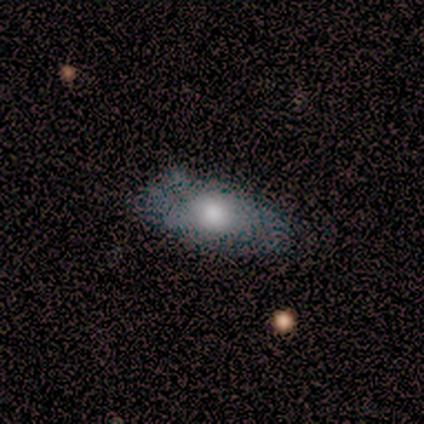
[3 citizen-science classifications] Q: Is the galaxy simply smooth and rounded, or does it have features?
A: smooth — 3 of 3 (100%).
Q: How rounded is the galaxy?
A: in between — 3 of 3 (100%).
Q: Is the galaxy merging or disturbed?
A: none — 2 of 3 (67%).